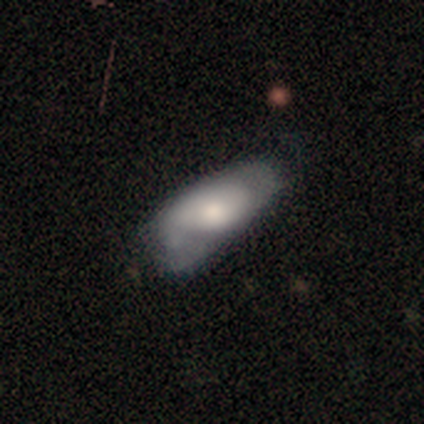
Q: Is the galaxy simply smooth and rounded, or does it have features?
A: smooth — 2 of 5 (40%, tied with featured or disk).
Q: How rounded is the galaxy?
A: in between — 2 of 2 (100%).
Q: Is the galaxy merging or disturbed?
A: none — 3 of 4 (75%).